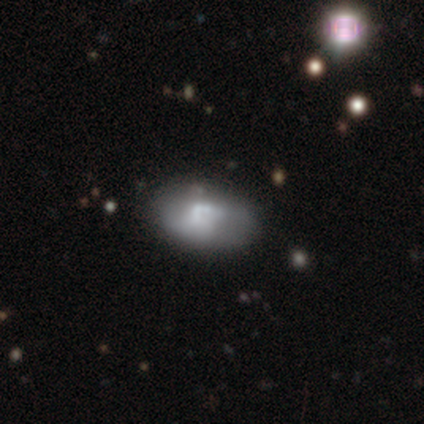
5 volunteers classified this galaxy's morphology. A smooth galaxy with no disk features (40%, tied with featured or disk) that is in between round and cigar-shaped (100%).

Vote fractions:
- Smooth or featured? smooth: 40% (tied) / featured or disk: 40% (tied) / star or artifact: 20%
- How rounded? in between: 100% / round: 0% / cigar-shaped: 0%
- Merging? none: 50% (tied) / minor disturbance: 50% (tied) / major disturbance: 0% / merger: 0%